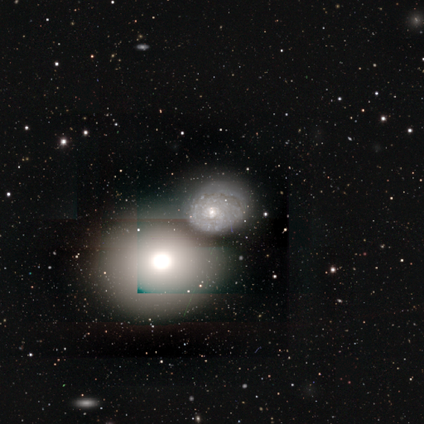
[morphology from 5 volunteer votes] This is clearly a featured or disk galaxy (80%). It is clearly not viewed edge-on (100%). Bar: clearly no (100%). Spiral arm pattern: possibly yes (50%, tied with no). Spiral arm count: possibly 2 (50%, tied with can't tell). Spiral winding: clearly tight (100%). Central bulge: possibly small (50%). Merging: marginally major disturbance (40%).